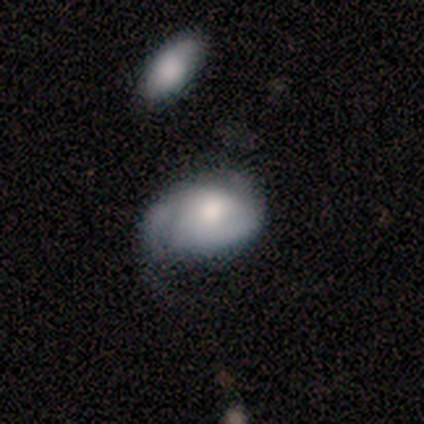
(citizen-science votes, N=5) Smooth or featured: featured or disk — 60% (smooth — 40%)
Edge-on disk: no — 100%
Bar: no — 100%
Spiral arms: no — 67% (yes — 33%)
Bulge size: moderate — 67% (large — 33%)
Merging: none — 40% (tied with minor disturbance — 40%)